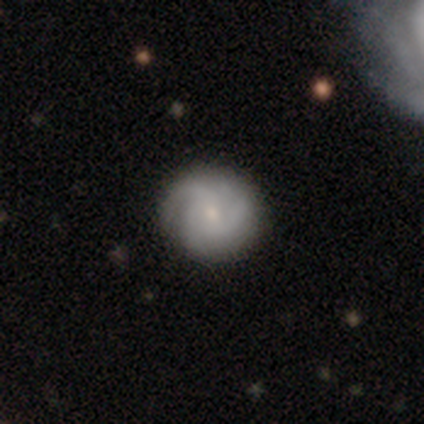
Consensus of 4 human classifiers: smooth_or_featured: smooth (p=0.50) [alt: featured or disk p=0.25]
how_rounded: round (p=1.00)
merging: none (p=1.00)